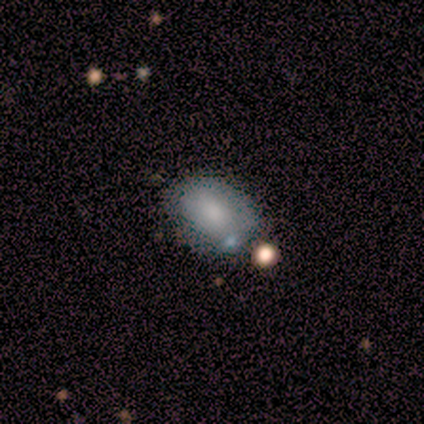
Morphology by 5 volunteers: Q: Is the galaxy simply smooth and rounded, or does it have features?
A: smooth — 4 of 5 (80%).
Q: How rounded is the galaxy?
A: in between — 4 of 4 (100%).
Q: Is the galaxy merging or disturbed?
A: none — 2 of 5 (40%, tied with minor disturbance).